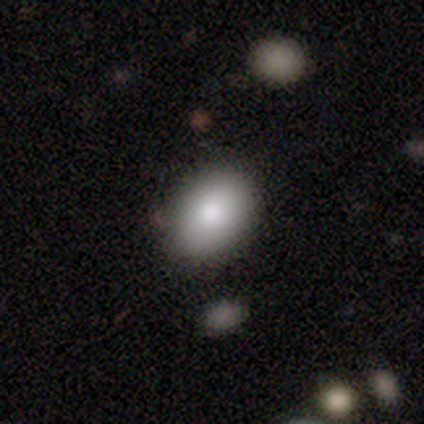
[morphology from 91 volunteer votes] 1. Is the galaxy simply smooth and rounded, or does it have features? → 87% smooth, 9% featured or disk, 4% star or artifact.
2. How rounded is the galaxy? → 89% in between, 10% round, 1% cigar-shaped.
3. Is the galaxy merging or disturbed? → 85% none, 14% minor disturbance, 1% major disturbance, 0% merger.